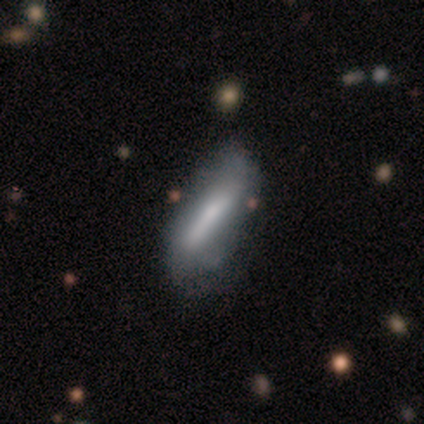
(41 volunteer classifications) Smooth or featured? 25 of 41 (61%) said featured or disk. Edge-on disk? 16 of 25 (64%) said no. Bar? 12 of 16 (75%) said strong. Spiral arms? 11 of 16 (69%) said no. Bulge size? 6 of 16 (38%) said small. Merging? 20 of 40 (50%) said none.